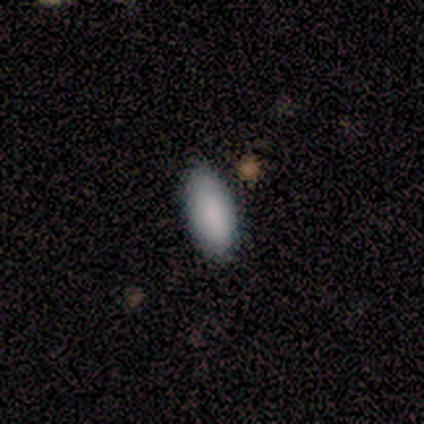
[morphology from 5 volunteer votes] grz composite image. It shows a smooth galaxy with no disk features (100%) that is in between round and cigar-shaped (100%). Merging: none (100%).